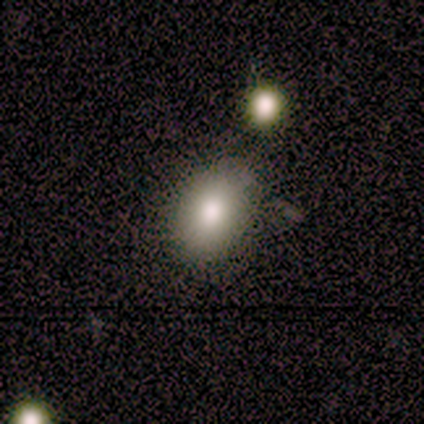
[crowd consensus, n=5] Q: Smooth or featured?
A: smooth (100%)
Q: How rounded?
A: in between (80%); runner-up: round (20%)
Q: Merging?
A: none (80%); runner-up: merger (20%)